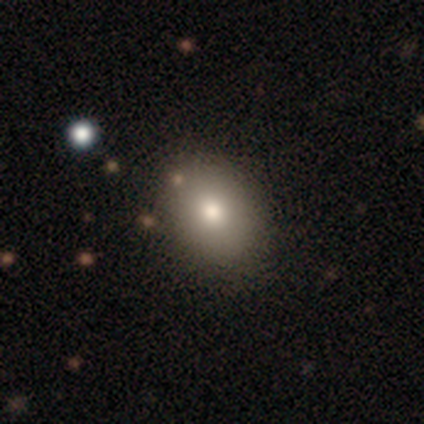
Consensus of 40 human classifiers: smooth 78%, featured or disk 15%, star or artifact 8%. Down the decision tree: how rounded — in between (65%); merging — none (84%).